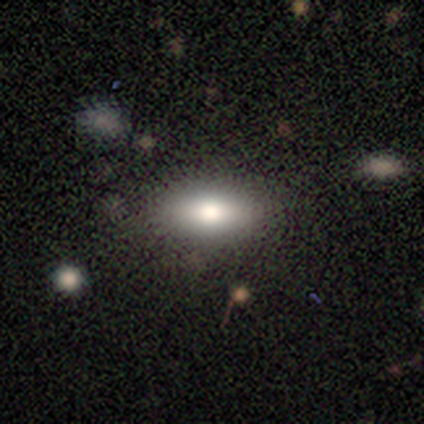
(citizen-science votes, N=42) Smooth or featured? smooth (76%)
How rounded? in between (75%)
Merging? none (92%)